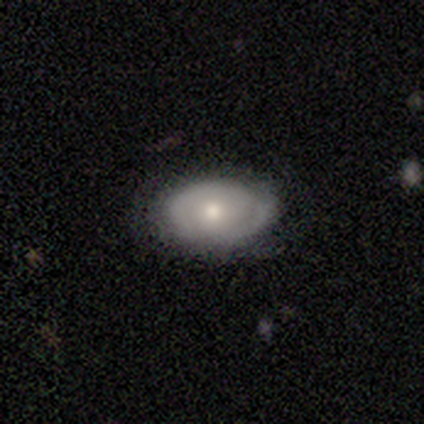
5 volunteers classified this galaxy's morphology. Smooth or featured: featured or disk — 60% (smooth — 40%)
Edge-on disk: no — 100%
Bar: no — 67% (weak — 33%)
Spiral arms: yes — 67% (no — 33%)
Spiral winding: tight — 100%
Spiral arm count: 2 — 50% (tied with can't tell — 50%)
Bulge size: moderate — 100%
Merging: none — 100%